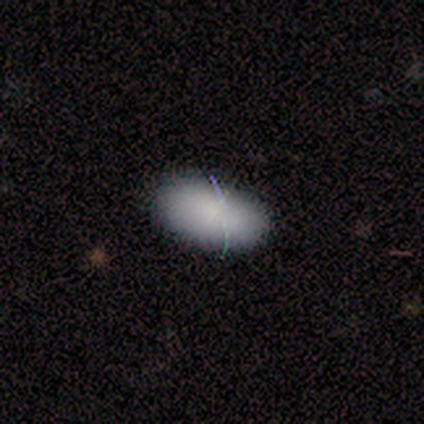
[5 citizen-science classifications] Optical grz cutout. It shows a smooth galaxy with no disk features (100%) that is in between round and cigar-shaped (80%). Merging: none (80%).